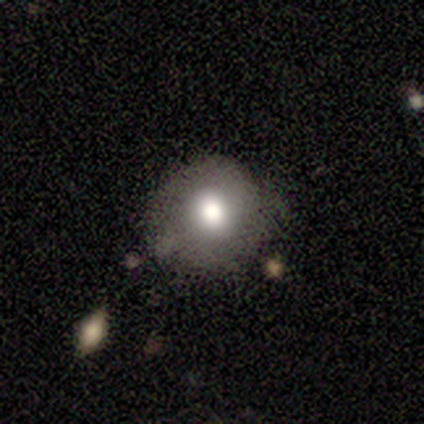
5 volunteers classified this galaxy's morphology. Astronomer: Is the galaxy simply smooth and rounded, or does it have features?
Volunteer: smooth — 80%.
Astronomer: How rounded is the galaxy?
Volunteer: round — 100%.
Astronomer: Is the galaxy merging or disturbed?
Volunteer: none — 100%.